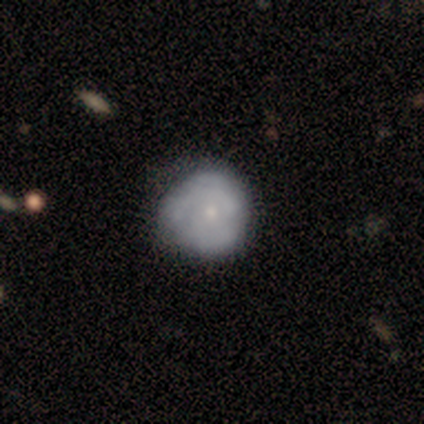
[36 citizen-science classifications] Morphology: type=featured or disk (56%); edge-on=no (100%); bar=no (90%); spiral arms=yes (50%, tied with no); winding=tight (70%); arm count=can't tell (60%); bulge=small (90%); merging=none (66%).